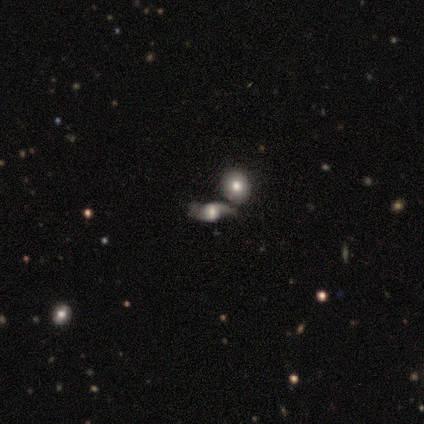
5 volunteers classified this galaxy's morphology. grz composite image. It shows a smooth galaxy with no disk features (60%) that is in between round and cigar-shaped (67%). Merging: none (40%, tied with merger).